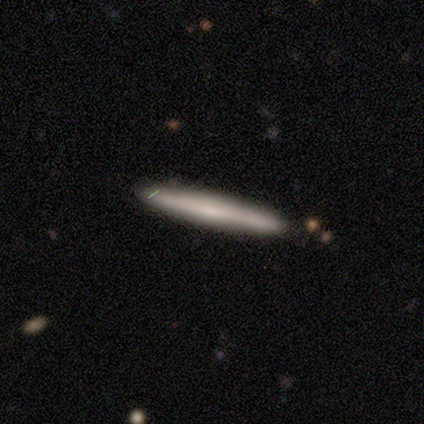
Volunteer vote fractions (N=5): smooth_or_featured: smooth (p=0.60) [alt: featured or disk p=0.40]
how_rounded: cigar-shaped (p=1.00)
merging: none (p=1.00)